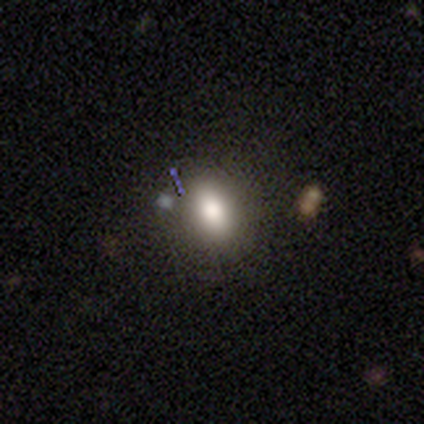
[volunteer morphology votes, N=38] Smooth or featured? smooth (61%)
How rounded? in between (61%)
Merging? none (75%)